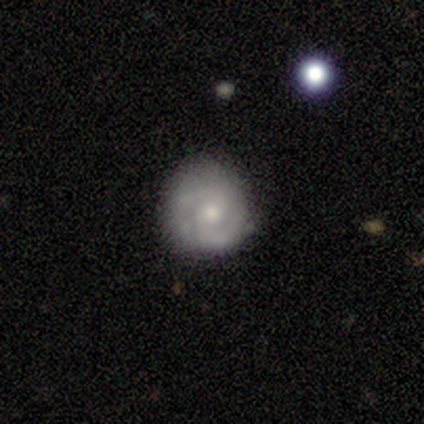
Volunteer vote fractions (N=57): This is likely a featured or disk galaxy (79%). It is clearly not viewed edge-on (100%). Bar: likely no (73%). Spiral arm pattern: clearly yes (87%). Spiral arm count: likely 2 (74%). Spiral winding: possibly tight (59%). Central bulge: possibly moderate (56%). Merging: likely none (62%).